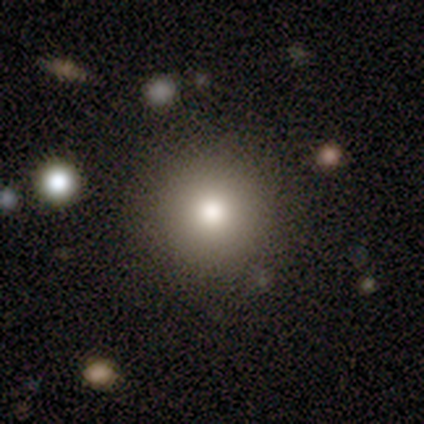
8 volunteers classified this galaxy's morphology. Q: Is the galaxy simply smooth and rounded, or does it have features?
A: smooth — 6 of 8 (75%).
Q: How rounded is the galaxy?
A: round — 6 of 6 (100%).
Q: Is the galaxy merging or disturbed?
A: none — 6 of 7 (86%).